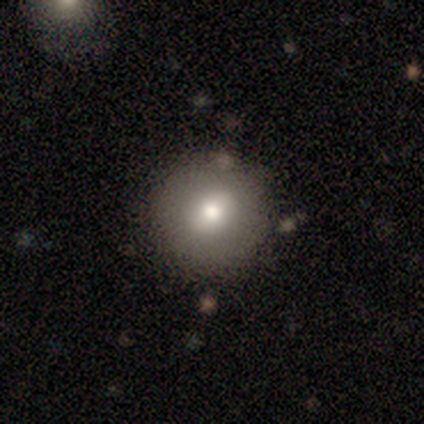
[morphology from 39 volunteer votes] A smooth galaxy with no disk features (69%) that is round (96%). Merging: none (89%).